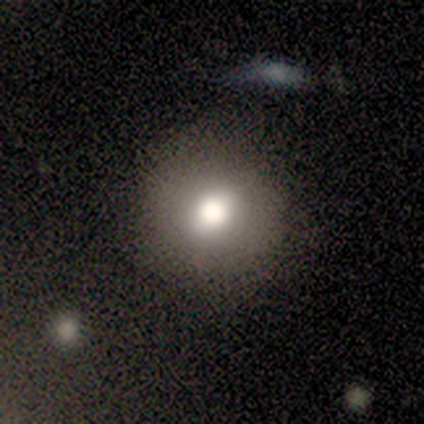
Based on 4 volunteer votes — This is possibly a smooth galaxy (50%). How rounded: clearly round (100%). Merging: likely none (67%).